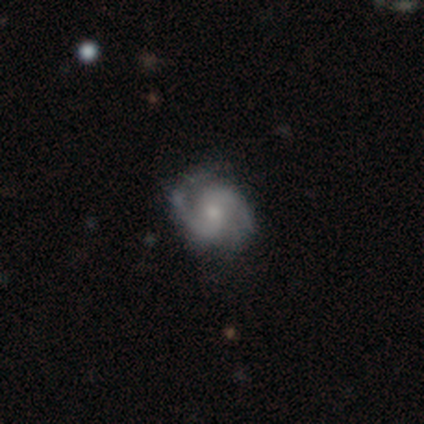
Volunteers were most divided on "spiral winding": medium: 75%, loose: 25%, tight: 0%. More confident: edge-on disk — no (100%); smooth or featured — featured or disk (90%); merging — none (90%); bar — no (89%); spiral arms — yes (89%); spiral arm count — 2 (88%); bulge size — moderate (78%).